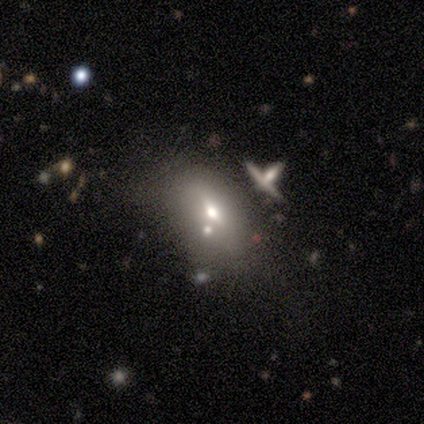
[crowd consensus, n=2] Q: Smooth or featured?
A: smooth (100%)
Q: How rounded?
A: round (50%); tied with: in between (50%)
Q: Merging?
A: minor disturbance (100%)